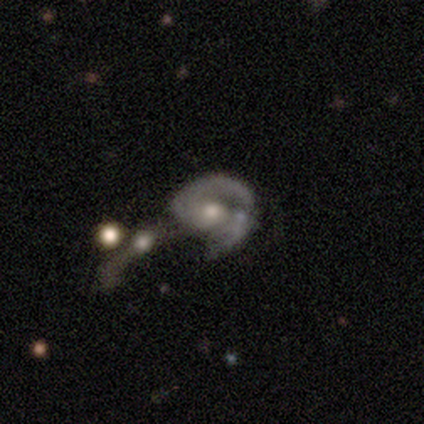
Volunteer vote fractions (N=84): This appears to be a featured or disk galaxy (81%) with no bar (56%), 2 (59%) tight (55%) spiral arms (85%) and a moderate central bulge (64%). Merging: merger (42%).